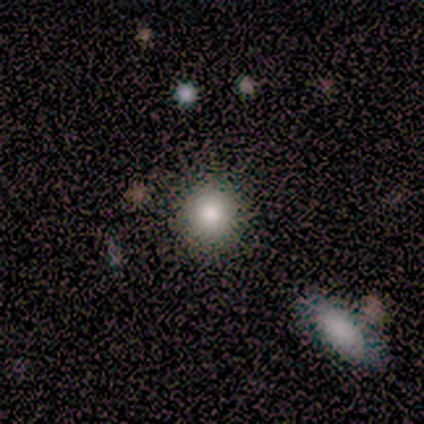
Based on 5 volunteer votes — This appears to be a smooth galaxy with no disk features (100%) that is round (100%). Merging: none (80%).